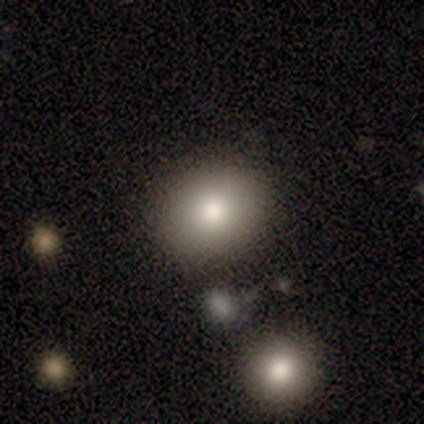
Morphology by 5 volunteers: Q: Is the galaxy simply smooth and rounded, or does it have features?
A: smooth — 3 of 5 (60%).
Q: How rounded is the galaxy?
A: round — 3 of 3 (100%).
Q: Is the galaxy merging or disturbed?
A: none — 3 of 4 (75%).